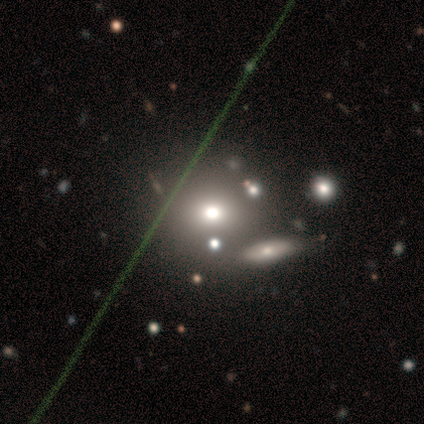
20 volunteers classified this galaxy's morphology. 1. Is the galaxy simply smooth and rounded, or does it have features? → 40% featured or disk, 35% smooth, 25% star or artifact.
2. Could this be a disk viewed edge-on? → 88% no, 12% yes.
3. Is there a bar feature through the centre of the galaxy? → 100% no, 0% strong, 0% weak.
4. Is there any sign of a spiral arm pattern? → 100% no, 0% yes.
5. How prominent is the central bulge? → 43% moderate, 29% large, 14% dominant, 14% small, 0% none.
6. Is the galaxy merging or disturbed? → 93% none, 7% minor disturbance, 0% major disturbance, 0% merger.